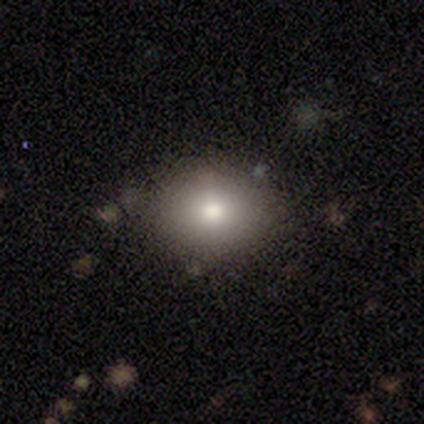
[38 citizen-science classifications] Smooth or featured: smooth — 66% (featured or disk — 18%)
How rounded: round — 64% (in between — 36%)
Merging: none — 84% (minor disturbance — 12%)